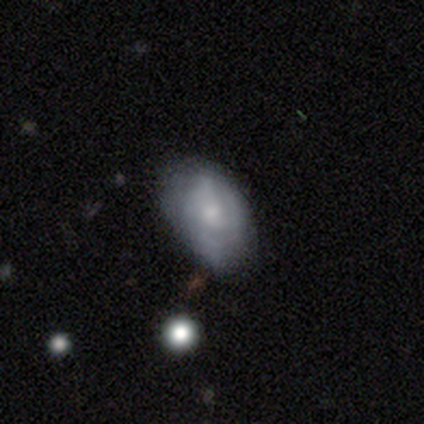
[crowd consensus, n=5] Smooth or featured: smooth — 60% (featured or disk — 40%)
How rounded: in between — 100%
Merging: minor disturbance — 60% (none — 40%)